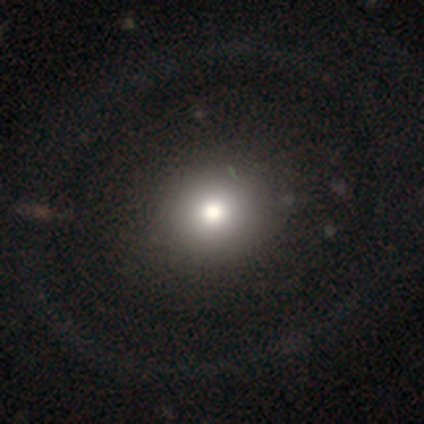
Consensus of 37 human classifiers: Volunteers were most divided on "smooth or featured": smooth: 62%, featured or disk: 35%, star or artifact: 3%. More confident: how rounded — round (70%); merging — none (64%).